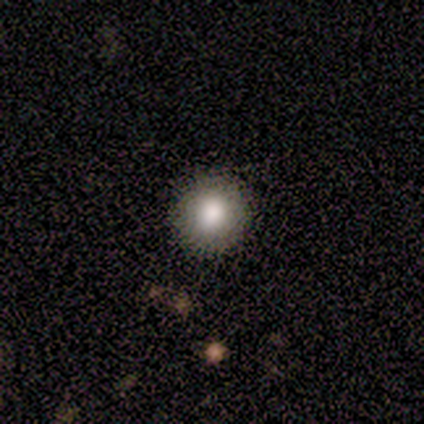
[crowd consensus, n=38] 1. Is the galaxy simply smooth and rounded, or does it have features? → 71% smooth, 16% featured or disk, 13% star or artifact.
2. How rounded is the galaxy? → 89% round, 11% in between, 0% cigar-shaped.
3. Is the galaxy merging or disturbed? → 94% none, 6% minor disturbance, 0% major disturbance, 0% merger.